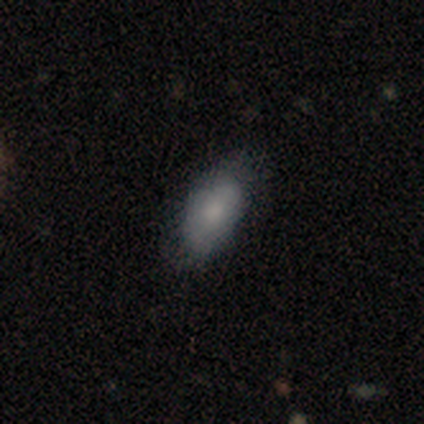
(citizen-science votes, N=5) Smooth or featured? 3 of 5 (60%) said featured or disk. Edge-on disk? 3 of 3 (100%) said no. Bar? 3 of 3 (100%) said no. Spiral arms? 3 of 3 (100%) said no. Bulge size? 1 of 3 (33%, tied with small and none) said moderate. Merging? 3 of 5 (60%) said none.